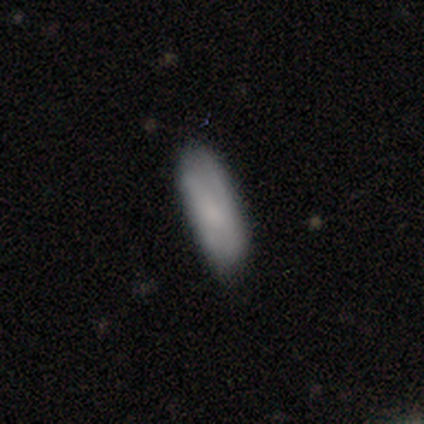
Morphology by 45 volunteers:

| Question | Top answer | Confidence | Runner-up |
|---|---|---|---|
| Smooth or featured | smooth | 73% | featured or disk (20%) |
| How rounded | in between | 58% | cigar-shaped (42%) |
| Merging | none | 74% | minor disturbance (17%) |